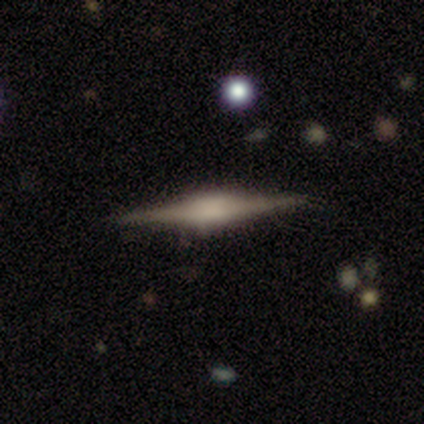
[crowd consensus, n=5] smooth_or_featured: featured or disk (p=0.80) [alt: smooth p=0.20]
disk_edge_on: yes (p=1.00)
edge_on_bulge: boxy (p=0.75) [alt: rounded p=0.25]
merging: none (p=0.80) [alt: major disturbance p=0.20]